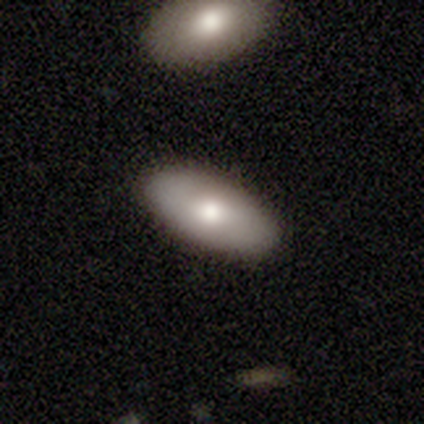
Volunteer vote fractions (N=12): Volunteers were most divided on "smooth or featured": smooth: 75%, featured or disk: 25%, star or artifact: 0%. More confident: how rounded — in between (89%); merging — none (83%).